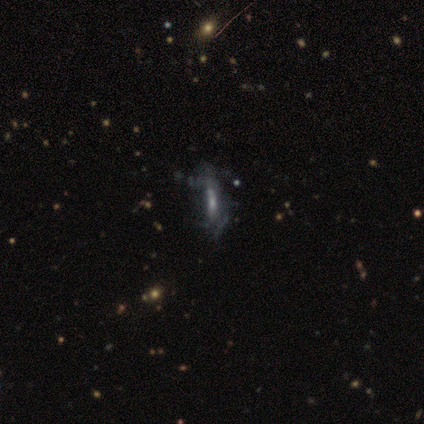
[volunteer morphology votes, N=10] type=featured or disk (60%); edge-on=yes (50%, tied with no); edge-on bulge=rounded (67%); merging=none (30%, tied with minor disturbance and major disturbance).